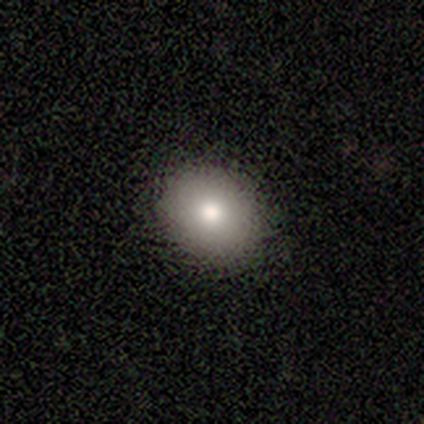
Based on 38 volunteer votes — This is clearly a smooth galaxy (82%). How rounded: possibly round (55%). Merging: clearly none (91%).